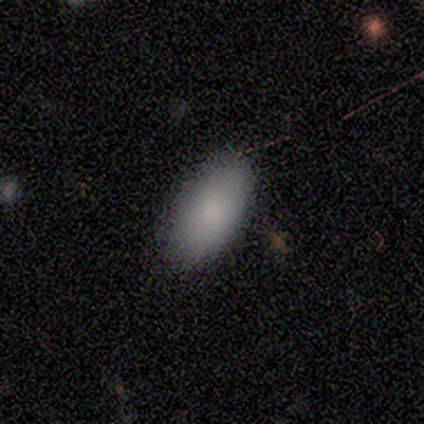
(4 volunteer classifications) Volunteers were most divided on "how rounded": in between: 67%, cigar-shaped: 33%, round: 0%. More confident: smooth or featured — smooth (75%); merging — none (75%).